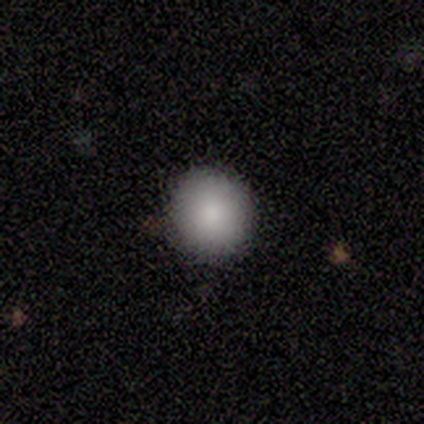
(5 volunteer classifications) Smooth or featured?
  - smooth: 80% *
  - star or artifact: 20%
  - featured or disk: 0%
How rounded?
  - round: 100% *
  - in between: 0%
  - cigar-shaped: 0%
Merging?
  - none: 100% *
  - minor disturbance: 0%
  - major disturbance: 0%
  - merger: 0%